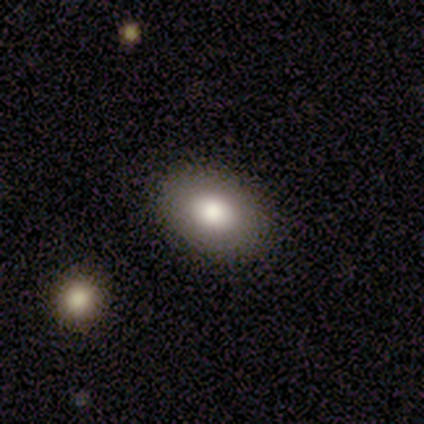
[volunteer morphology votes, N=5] A smooth galaxy with no disk features (60%) that is in between round and cigar-shaped (100%).

Vote fractions:
- Smooth or featured? smooth: 60% / featured or disk: 20% / star or artifact: 20%
- How rounded? in between: 100% / round: 0% / cigar-shaped: 0%
- Merging? none: 75% / major disturbance: 25% / minor disturbance: 0% / merger: 0%